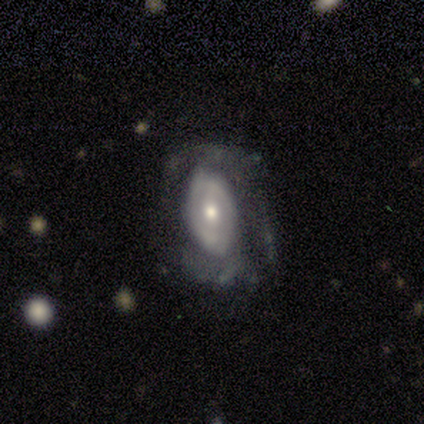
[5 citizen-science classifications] A featured or disk galaxy (60%) with no bar (67%), no spiral arms (67%) and a moderate central bulge (100%).

Vote fractions:
- Smooth or featured? featured or disk: 60% / smooth: 40% / star or artifact: 0%
- Edge-on disk? no: 100% / yes: 0%
- Bar? no: 67% / strong: 33% / weak: 0%
- Spiral arms? no: 67% / yes: 33%
- Bulge size? moderate: 100% / dominant: 0% / large: 0% / small: 0% / none: 0%
- Merging? none: 80% / major disturbance: 20% / minor disturbance: 0% / merger: 0%